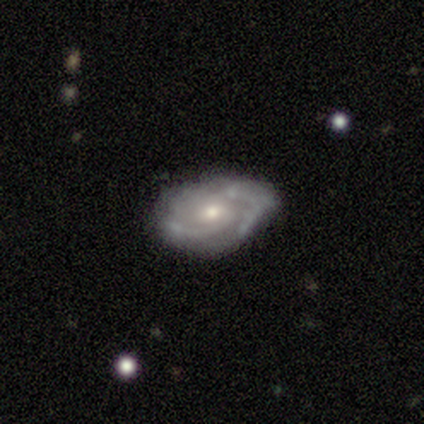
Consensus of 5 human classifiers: A featured or disk galaxy (60%) with no bar (67%), 2 (67%) medium (100%) spiral arms (100%) and a moderate central bulge (67%).

Vote fractions:
- Smooth or featured? featured or disk: 60% / smooth: 40% / star or artifact: 0%
- Edge-on disk? no: 100% / yes: 0%
- Bar? no: 67% / weak: 33% / strong: 0%
- Spiral arms? yes: 100% / no: 0%
- Spiral winding? medium: 100% / tight: 0% / loose: 0%
- Spiral arm count? 2: 67% / can't tell: 33% / 1: 0% / 3: 0% / 4: 0% / more than 4: 0%
- Bulge size? moderate: 67% / small: 33% / dominant: 0% / large: 0% / none: 0%
- Merging? none: 60% / minor disturbance: 20% / major disturbance: 20% / merger: 0%